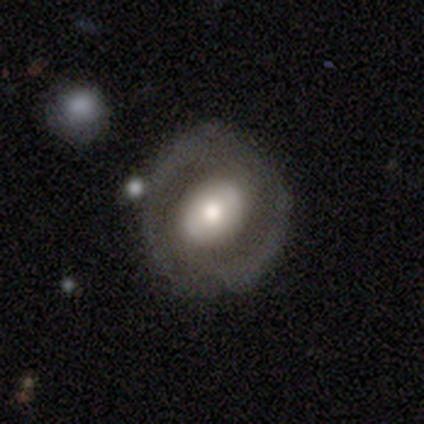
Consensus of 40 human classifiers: Smooth or featured? 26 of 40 (65%) said featured or disk. Edge-on disk? 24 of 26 (92%) said no. Bar? 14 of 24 (58%) said no. Spiral arms? 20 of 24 (83%) said no. Bulge size? 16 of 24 (67%) said moderate. Merging? 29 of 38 (76%) said none.